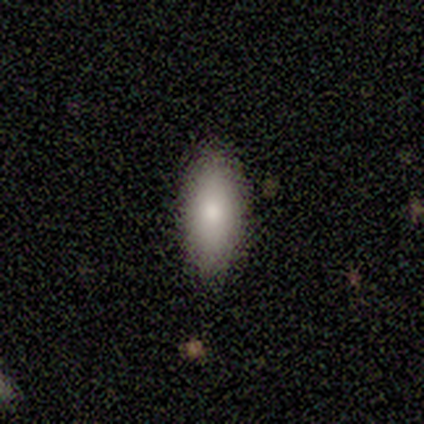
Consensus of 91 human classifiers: This appears to be a smooth galaxy with no disk features (88%) that is in between round and cigar-shaped (76%). Merging: none (84%).